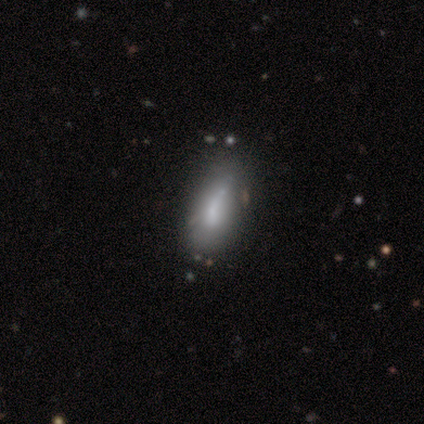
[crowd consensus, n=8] Smooth or featured: smooth — 62% (featured or disk — 38%)
How rounded: in between — 80% (cigar-shaped — 20%)
Merging: none — 50% (minor disturbance — 25%)